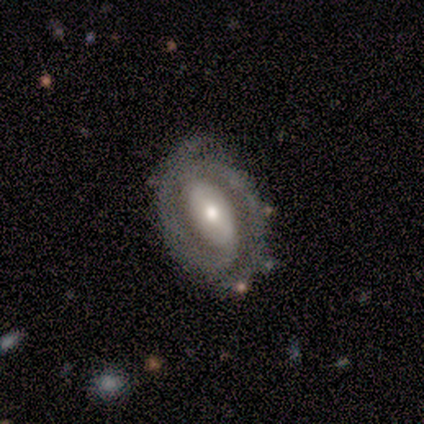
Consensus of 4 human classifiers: This is likely a featured or disk galaxy (75%). It is likely not viewed edge-on (67%). Bar: possibly strong (50%, tied with no). Spiral arm pattern: clearly yes (100%). Spiral arm count: clearly 2 (100%). Spiral winding: clearly tight (100%). Central bulge: clearly moderate (100%). Merging: clearly none (100%).